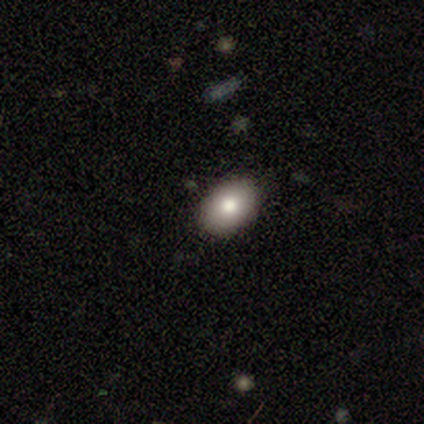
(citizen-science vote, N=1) smooth 100%, featured or disk 0%, star or artifact 0%. Down the decision tree: how rounded — in between (100%); merging — none (100%).